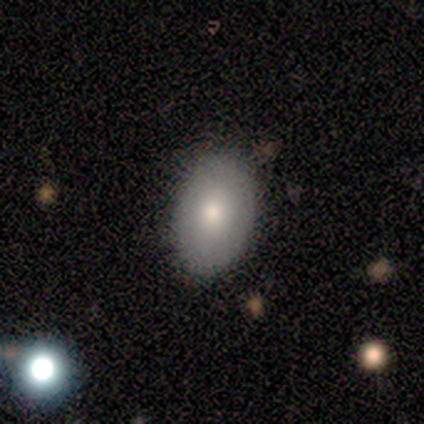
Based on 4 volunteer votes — Q: Smooth or featured?
A: smooth (100%)
Q: How rounded?
A: in between (75%); runner-up: round (25%)
Q: Merging?
A: none (100%)